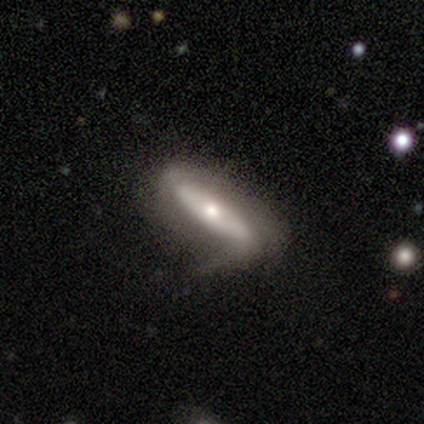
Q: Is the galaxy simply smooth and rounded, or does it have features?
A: featured or disk — 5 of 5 (100%).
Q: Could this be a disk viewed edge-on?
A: yes — 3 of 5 (60%).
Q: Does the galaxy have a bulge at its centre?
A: rounded — 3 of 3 (100%).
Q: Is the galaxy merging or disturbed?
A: minor disturbance — 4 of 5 (80%).